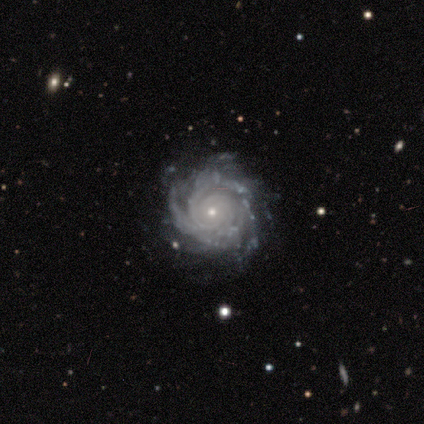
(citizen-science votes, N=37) This is clearly a featured or disk galaxy (95%). It is clearly not viewed edge-on (100%). Bar: likely no (77%). Spiral arm pattern: clearly yes (97%). Spiral arm count: marginally can't tell (29%). Spiral winding: likely tight (74%). Central bulge: likely small (77%). Merging: likely none (74%).